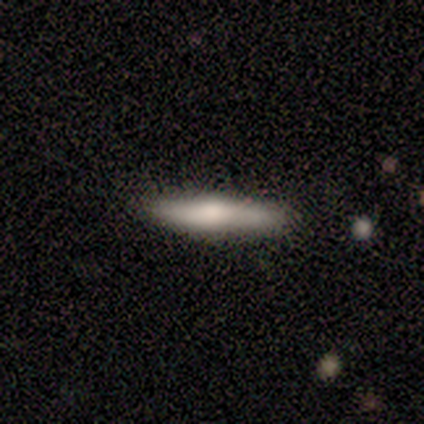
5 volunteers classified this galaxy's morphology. Smooth or featured? 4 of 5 (80%) said featured or disk. Edge-on disk? 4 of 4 (100%) said yes. Edge-on bulge? 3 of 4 (75%) said rounded. Merging? 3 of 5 (60%) said none.